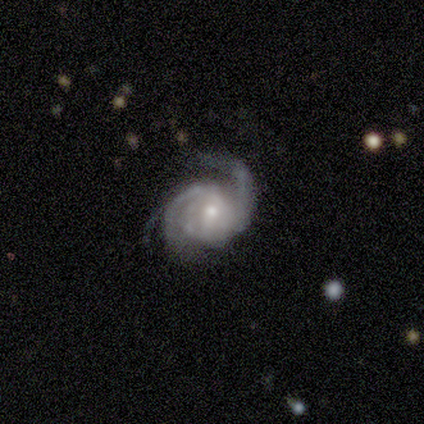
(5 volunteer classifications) Smooth or featured: featured or disk — 100%
Edge-on disk: no — 80% (yes — 20%)
Bar: no — 100%
Spiral arms: yes — 100%
Spiral winding: loose — 50% (tight — 25%)
Spiral arm count: 2 — 50% (tied with 3 — 50%)
Bulge size: small — 75% (moderate — 25%)
Merging: none — 40% (tied with major disturbance — 40%)